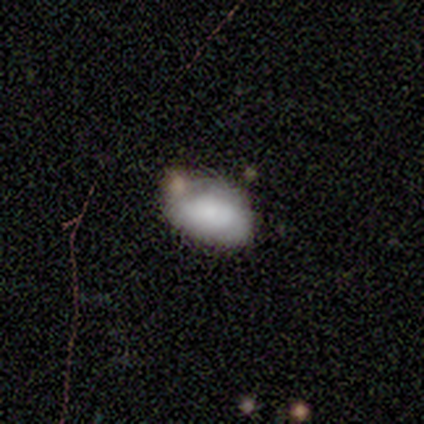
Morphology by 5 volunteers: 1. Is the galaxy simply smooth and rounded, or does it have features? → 40% smooth (tied), 40% featured or disk (tied), 20% star or artifact.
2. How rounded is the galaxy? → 50% round (tied), 50% in between (tied), 0% cigar-shaped.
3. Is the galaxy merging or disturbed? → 75% none, 25% minor disturbance, 0% major disturbance, 0% merger.